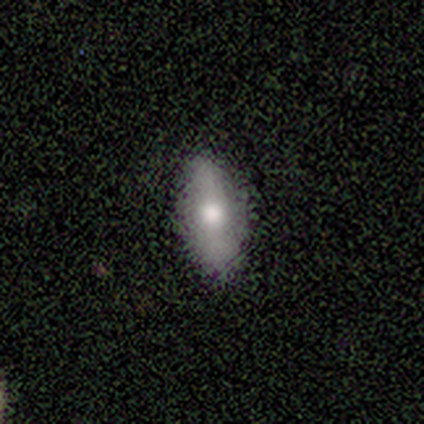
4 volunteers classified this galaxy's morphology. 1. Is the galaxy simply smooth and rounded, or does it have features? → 100% smooth, 0% featured or disk, 0% star or artifact.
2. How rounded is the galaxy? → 100% in between, 0% round, 0% cigar-shaped.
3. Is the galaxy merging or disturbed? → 75% none, 25% minor disturbance, 0% major disturbance, 0% merger.